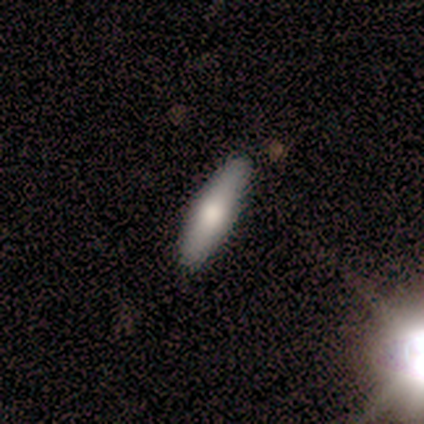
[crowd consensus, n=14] Volunteers were most divided on "how rounded": cigar-shaped: 70%, in between: 30%, round: 0%. More confident: merging — none (93%); smooth or featured — smooth (71%).